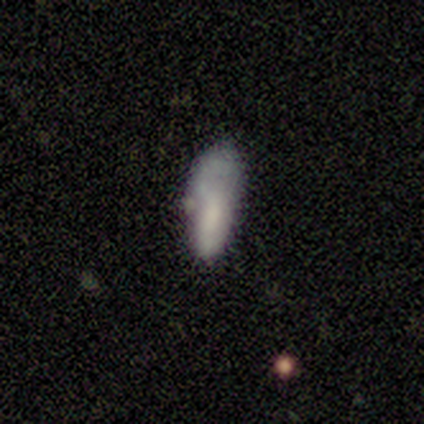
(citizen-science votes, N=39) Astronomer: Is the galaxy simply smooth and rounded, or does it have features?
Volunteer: smooth — 79%.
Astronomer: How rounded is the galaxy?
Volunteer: in between — 84%.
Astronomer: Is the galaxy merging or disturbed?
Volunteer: none — 46% (runner-up: major disturbance, 27%).